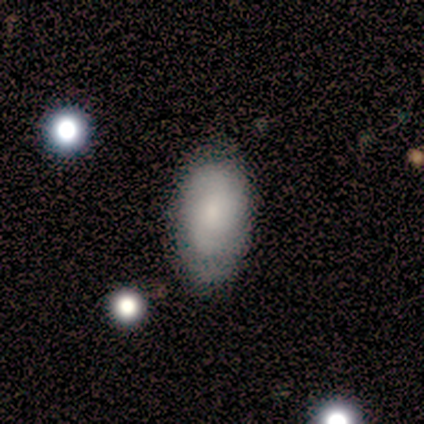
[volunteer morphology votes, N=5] A smooth galaxy with no disk features (100%) that is in between round and cigar-shaped (100%).

Vote fractions:
- Smooth or featured? smooth: 100% / featured or disk: 0% / star or artifact: 0%
- How rounded? in between: 100% / round: 0% / cigar-shaped: 0%
- Merging? none: 100% / minor disturbance: 0% / major disturbance: 0% / merger: 0%